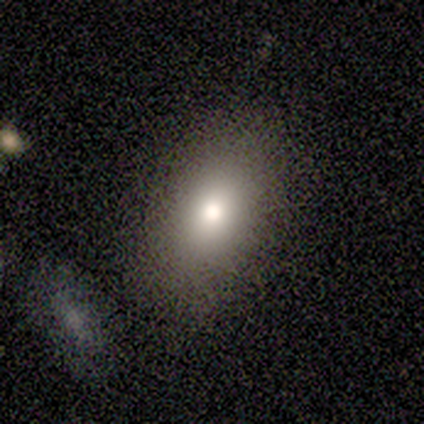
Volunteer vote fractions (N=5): Smooth or featured? smooth (100%)
How rounded? in between (100%)
Merging? none (60%)